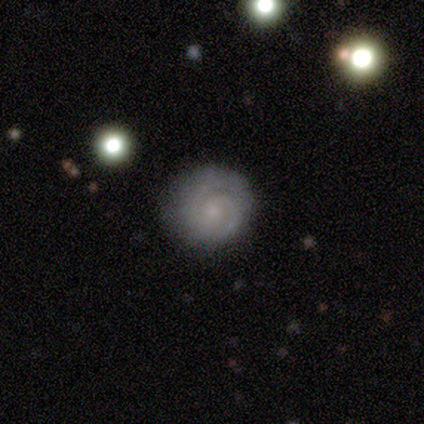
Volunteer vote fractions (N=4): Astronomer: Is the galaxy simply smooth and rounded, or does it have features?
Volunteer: featured or disk — 75%.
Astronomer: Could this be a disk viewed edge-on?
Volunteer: no — 100%.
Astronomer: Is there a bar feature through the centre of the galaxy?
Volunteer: no — 67%.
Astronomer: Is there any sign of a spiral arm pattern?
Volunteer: yes — 100%.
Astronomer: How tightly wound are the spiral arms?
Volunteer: tight — 100%.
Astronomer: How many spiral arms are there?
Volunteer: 2 — 33%, tied with 3 and can't tell at 33%.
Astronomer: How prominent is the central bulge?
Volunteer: small — 67%.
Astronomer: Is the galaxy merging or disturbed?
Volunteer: none — 75%.